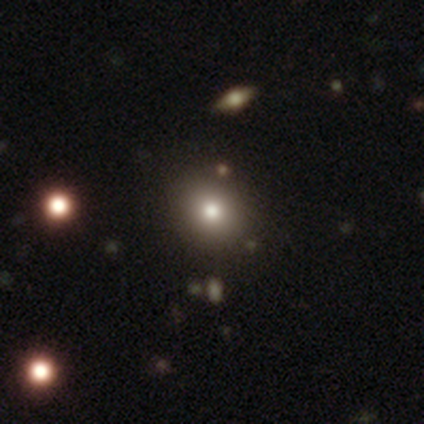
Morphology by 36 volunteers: Smooth or featured? 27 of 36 (75%) said smooth. How rounded? 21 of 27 (78%) said round. Merging? 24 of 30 (80%) said none.